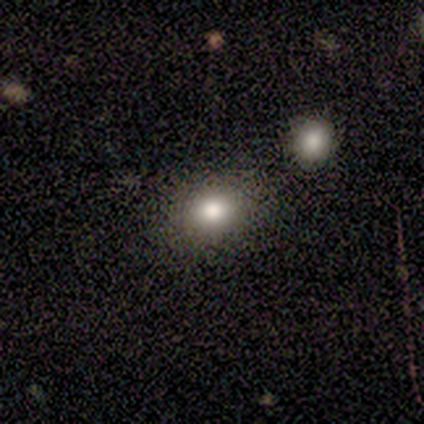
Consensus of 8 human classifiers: Smooth or featured: smooth — 75% (featured or disk — 12%)
How rounded: round — 83% (in between — 17%)
Merging: none — 86% (merger — 14%)